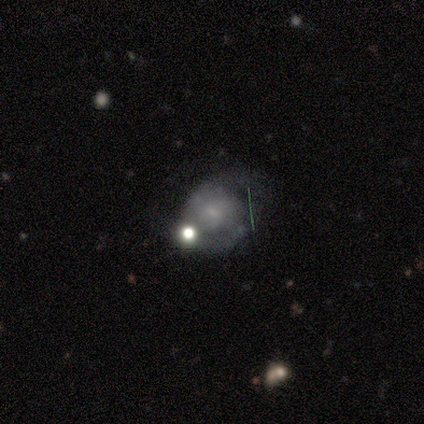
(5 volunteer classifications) smooth-or-featured: featured or disk: 80% | smooth: 20% | star or artifact: 0%
  disk-edge-on: no: 100% | yes: 0%
    bar: no: 100% | strong: 0% | weak: 0%
    has-spiral-arms: yes: 100% | no: 0%
      spiral-winding: tight: 75% | medium: 25% | loose: 0%
      spiral-arm-count: 2: 75% | 1: 25% | 3: 0% | 4: 0% | more than 4: 0% | can't tell: 0%
    bulge-size: none: 50% | moderate: 25% | small: 25% | dominant: 0% | large: 0%
  merging: major disturbance: 40% (tied) | merger: 40% (tied) | none: 20% | minor disturbance: 0%